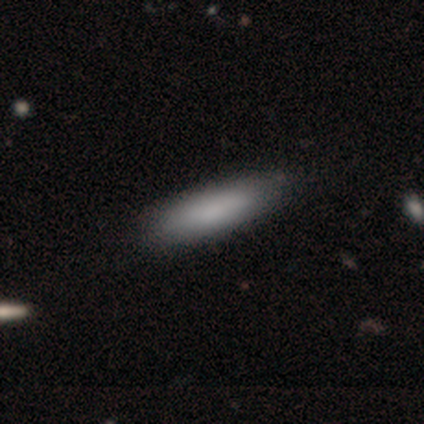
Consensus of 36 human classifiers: A smooth galaxy with no disk features (92%) that is cigar-shaped (67%). Merging: none (53%).